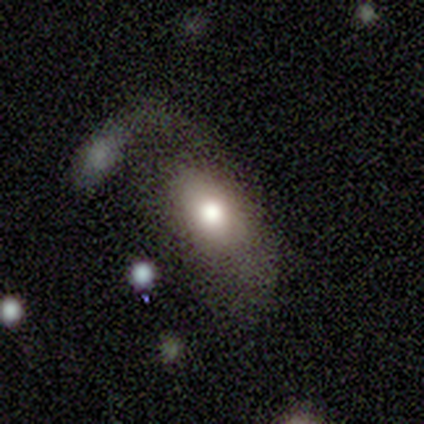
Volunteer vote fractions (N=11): smooth 64%, featured or disk 36%, star or artifact 0%. Down the decision tree: how rounded — in between (100%); merging — none (27%, tied with major disturbance and merger).